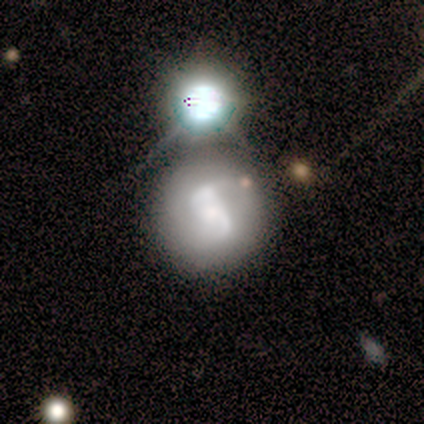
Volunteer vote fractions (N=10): This appears to be a featured or disk galaxy (90%) with no bar (44%), 2 (88%) medium (62%) spiral arms (89%) and a small central bulge (44%). Merging: none (44%).